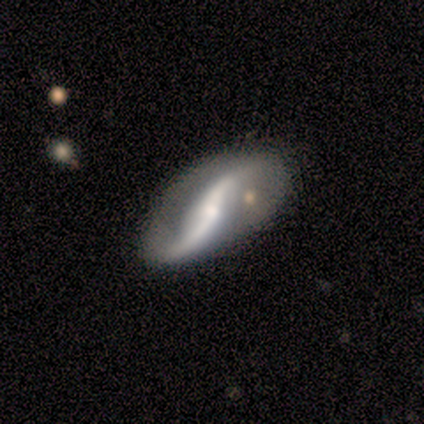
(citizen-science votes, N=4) Smooth or featured? 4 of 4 (100%) said featured or disk. Edge-on disk? 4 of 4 (100%) said no. Bar? 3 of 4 (75%) said no. Spiral arms? 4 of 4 (100%) said yes. Spiral winding? 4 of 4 (100%) said loose. Spiral arm count? 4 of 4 (100%) said 2. Bulge size? 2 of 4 (50%, tied with small) said moderate. Merging? 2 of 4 (50%, tied with minor disturbance) said none.